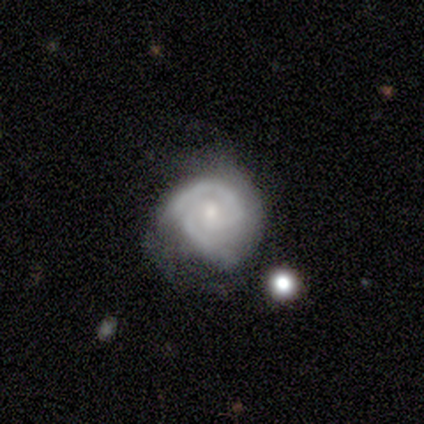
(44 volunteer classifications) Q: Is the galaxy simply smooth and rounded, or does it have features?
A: featured or disk — 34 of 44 (77%).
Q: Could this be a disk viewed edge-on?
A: no — 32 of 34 (94%).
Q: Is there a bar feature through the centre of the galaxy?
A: no — 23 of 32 (72%).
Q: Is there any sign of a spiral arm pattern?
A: yes — 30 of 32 (94%).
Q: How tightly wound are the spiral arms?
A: tight — 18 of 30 (60%).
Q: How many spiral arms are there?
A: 2 — 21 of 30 (70%).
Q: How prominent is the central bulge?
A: moderate — 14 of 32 (44%).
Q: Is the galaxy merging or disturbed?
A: none — 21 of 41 (51%).